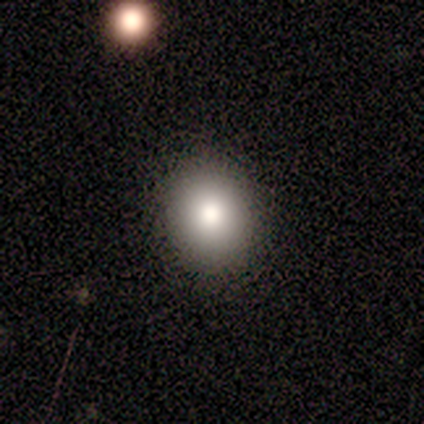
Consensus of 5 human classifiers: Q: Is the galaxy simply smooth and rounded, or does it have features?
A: star or artifact — 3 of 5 (60%).